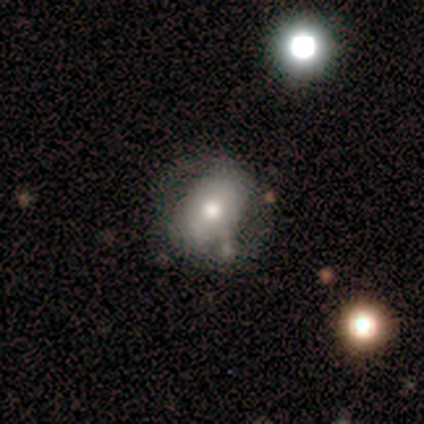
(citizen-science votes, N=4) smooth 50% (tied), featured or disk 50% (tied), star or artifact 0%. Down the decision tree: how rounded — round (50%, tied with in between); merging — none (50%, tied with major disturbance).